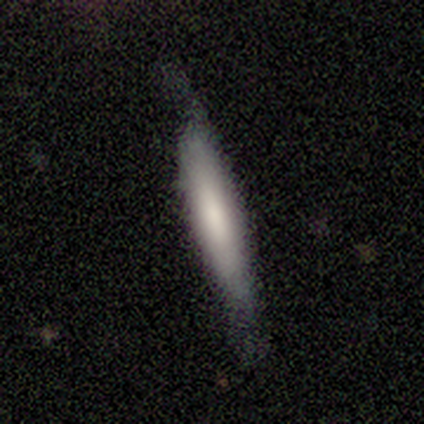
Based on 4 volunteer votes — Smooth or featured?
  - smooth: 75% *
  - featured or disk: 25%
  - star or artifact: 0%
How rounded?
  - cigar-shaped: 100% *
  - round: 0%
  - in between: 0%
Merging?
  - none: 75% *
  - minor disturbance: 25%
  - major disturbance: 0%
  - merger: 0%